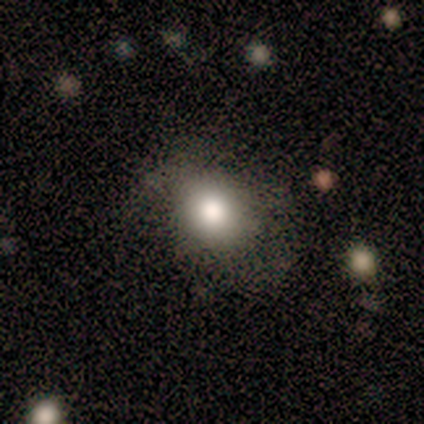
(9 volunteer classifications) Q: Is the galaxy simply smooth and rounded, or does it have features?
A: smooth — 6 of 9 (67%).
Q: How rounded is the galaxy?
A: round — 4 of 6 (67%).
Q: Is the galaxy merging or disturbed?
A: none — 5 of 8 (62%).